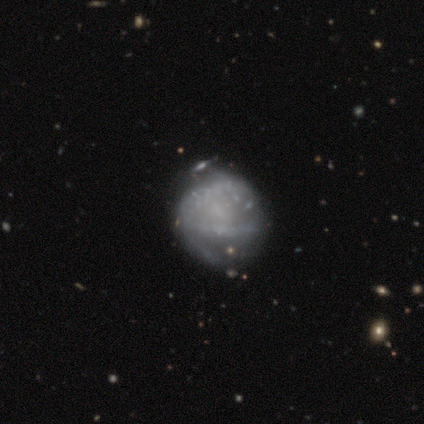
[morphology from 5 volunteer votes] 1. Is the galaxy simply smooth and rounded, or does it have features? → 60% smooth, 40% featured or disk, 0% star or artifact.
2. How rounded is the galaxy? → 100% round, 0% in between, 0% cigar-shaped.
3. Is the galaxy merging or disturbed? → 40% minor disturbance, 20% none, 20% major disturbance, 20% merger.